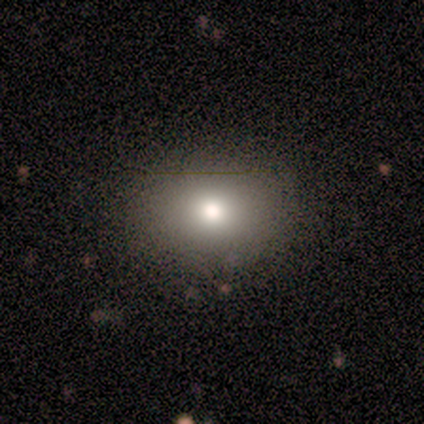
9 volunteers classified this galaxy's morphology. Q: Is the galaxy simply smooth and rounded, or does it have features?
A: smooth — 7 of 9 (78%).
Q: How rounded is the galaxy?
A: round — 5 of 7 (71%).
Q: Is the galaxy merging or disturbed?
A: none — 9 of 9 (100%).